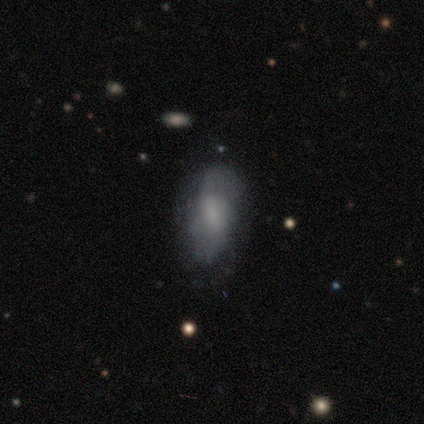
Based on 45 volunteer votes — This appears to be a smooth galaxy with no disk features (53%) that is in between round and cigar-shaped (83%). Merging: none (66%).